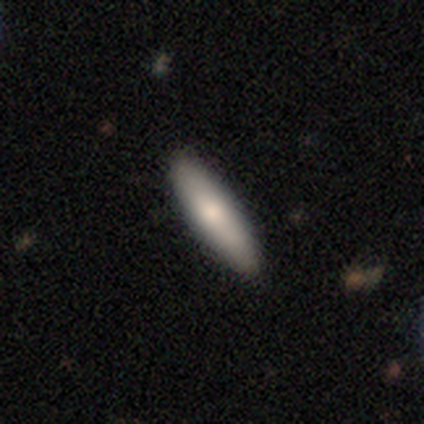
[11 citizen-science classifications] smooth_or_featured: smooth (p=0.91) [alt: featured or disk p=0.09]
how_rounded: cigar-shaped (p=0.90) [alt: in between p=0.10]
merging: none (p=0.91) [alt: minor disturbance p=0.09]